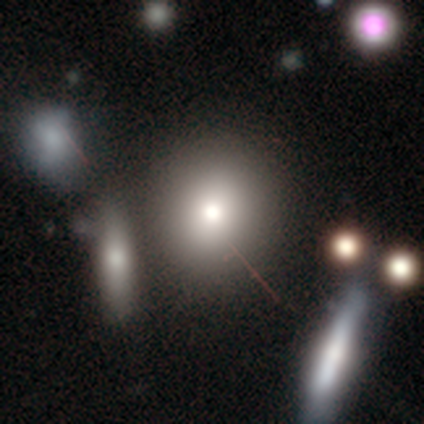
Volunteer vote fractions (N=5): smooth_or_featured: smooth (p=0.60) [alt: star or artifact p=0.40]
how_rounded: round (p=1.00)
merging: none (p=1.00)